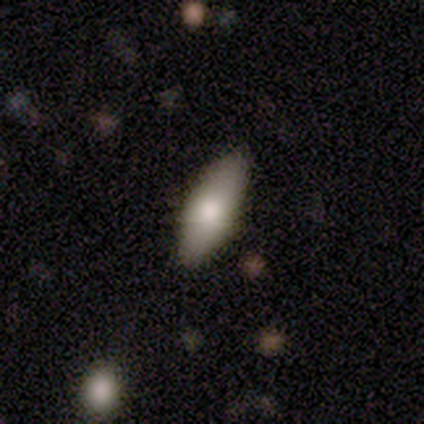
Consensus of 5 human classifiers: Q: Smooth or featured?
A: smooth (80%); runner-up: featured or disk (20%)
Q: How rounded?
A: in between (75%); runner-up: cigar-shaped (25%)
Q: Merging?
A: none (80%); runner-up: minor disturbance (20%)